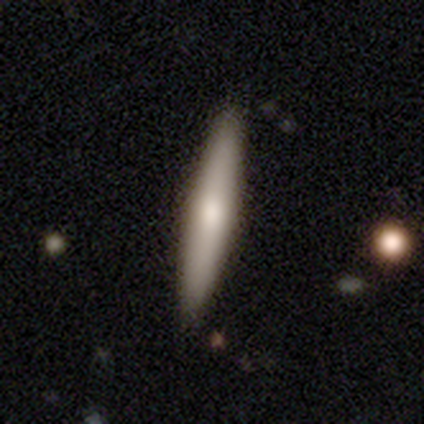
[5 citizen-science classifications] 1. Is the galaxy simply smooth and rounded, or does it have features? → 60% smooth, 40% featured or disk, 0% star or artifact.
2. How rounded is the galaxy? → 67% cigar-shaped, 33% in between, 0% round.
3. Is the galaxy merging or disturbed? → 100% none, 0% minor disturbance, 0% major disturbance, 0% merger.